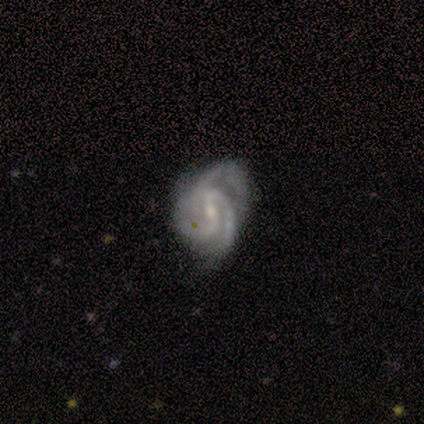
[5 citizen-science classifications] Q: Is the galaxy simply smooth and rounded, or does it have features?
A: featured or disk — 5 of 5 (100%).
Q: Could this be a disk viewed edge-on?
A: no — 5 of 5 (100%).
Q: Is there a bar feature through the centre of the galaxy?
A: no — 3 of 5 (60%).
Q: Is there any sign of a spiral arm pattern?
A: yes — 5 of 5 (100%).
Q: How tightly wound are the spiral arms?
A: tight — 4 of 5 (80%).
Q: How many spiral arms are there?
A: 3 — 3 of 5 (60%).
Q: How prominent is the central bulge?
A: small — 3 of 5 (60%).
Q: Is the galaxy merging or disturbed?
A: minor disturbance — 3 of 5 (60%).